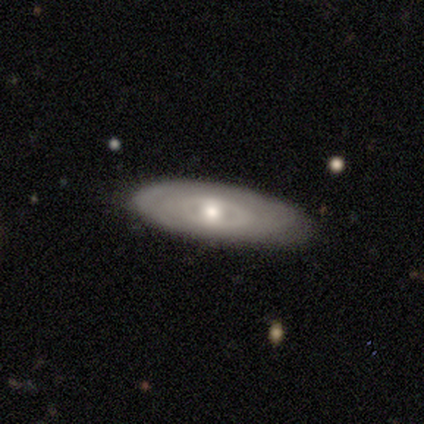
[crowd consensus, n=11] Volunteers were most divided on "spiral arms": no: 62%, yes: 38%. More confident: edge-on disk — no (100%); bar — no (100%); merging — none (100%); smooth or featured — featured or disk (73%); bulge size — moderate (62%).